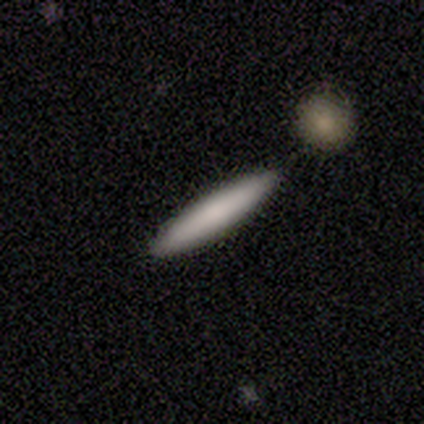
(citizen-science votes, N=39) Morphology: type=smooth (79%); roundness=cigar-shaped (90%); merging=none (59%).